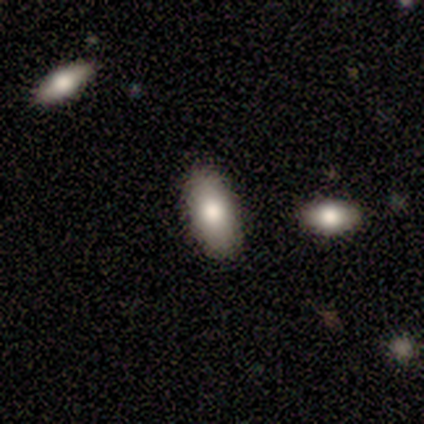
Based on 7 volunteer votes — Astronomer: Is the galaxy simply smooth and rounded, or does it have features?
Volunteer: smooth — 100%.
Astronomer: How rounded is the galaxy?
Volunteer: in between — 100%.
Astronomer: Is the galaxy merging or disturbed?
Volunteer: none — 86%.